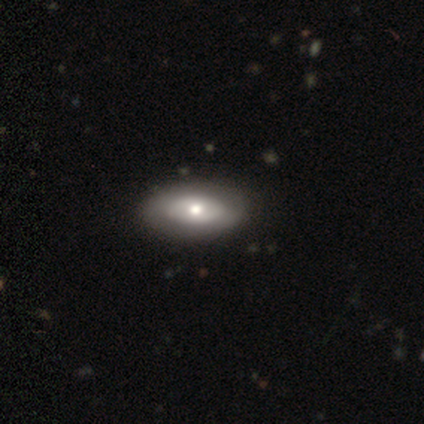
Smooth or featured? featured or disk (60%)
Edge-on disk? no (100%)
Bar? no (67%)
Spiral arms? no (67%)
Bulge size? moderate (67%)
Merging? none (100%)